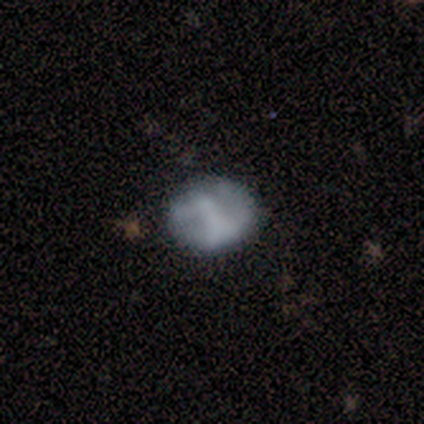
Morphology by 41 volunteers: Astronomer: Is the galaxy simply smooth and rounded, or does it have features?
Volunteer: featured or disk — 59% (runner-up: smooth, 39%).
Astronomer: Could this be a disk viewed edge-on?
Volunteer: no — 100%.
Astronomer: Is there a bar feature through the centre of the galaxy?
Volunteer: no — 46% (runner-up: strong, 33%).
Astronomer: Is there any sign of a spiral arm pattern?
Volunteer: no — 67%.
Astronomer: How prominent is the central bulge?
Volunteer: none — 62%.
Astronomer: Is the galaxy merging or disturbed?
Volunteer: none — 72%.